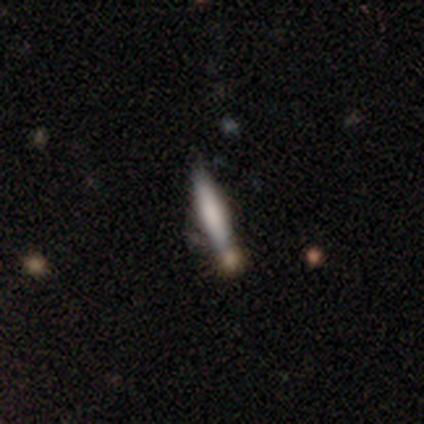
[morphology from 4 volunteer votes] This is likely a smooth galaxy (75%). How rounded: likely in between (67%). Merging: likely none (75%).